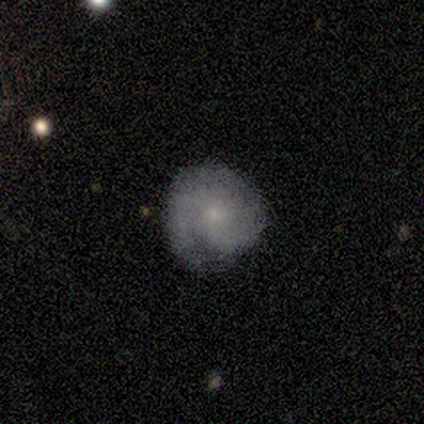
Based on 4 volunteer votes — A smooth galaxy with no disk features (50%, tied with featured or disk) that is round (100%).

Vote fractions:
- Smooth or featured? smooth: 50% (tied) / featured or disk: 50% (tied) / star or artifact: 0%
- How rounded? round: 100% / in between: 0% / cigar-shaped: 0%
- Merging? none: 100% / minor disturbance: 0% / major disturbance: 0% / merger: 0%